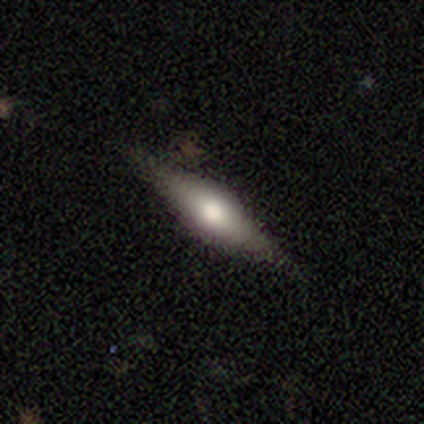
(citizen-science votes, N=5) Overall: featured or disk (60%; smooth 40%). Edge-on disk: yes (100%). Edge-on bulge: rounded (100%). Merging: none (80%).